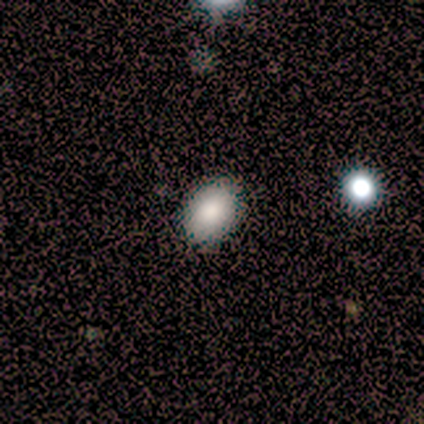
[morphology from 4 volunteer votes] Q: Smooth or featured?
A: smooth (100%)
Q: How rounded?
A: in between (75%); runner-up: round (25%)
Q: Merging?
A: none (100%)